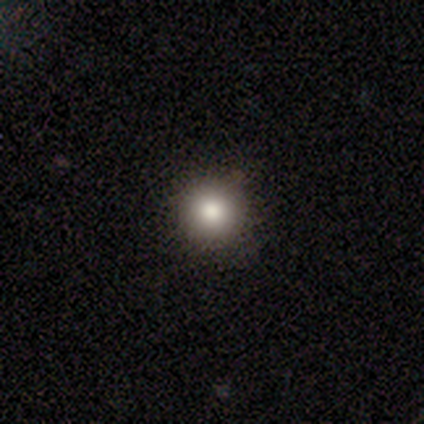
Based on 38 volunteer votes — A smooth galaxy with no disk features (79%) that is round (87%).

Vote fractions:
- Smooth or featured? smooth: 79% / star or artifact: 13% / featured or disk: 8%
- How rounded? round: 87% / in between: 13% / cigar-shaped: 0%
- Merging? none: 88% / minor disturbance: 6% / major disturbance: 3% / merger: 3%